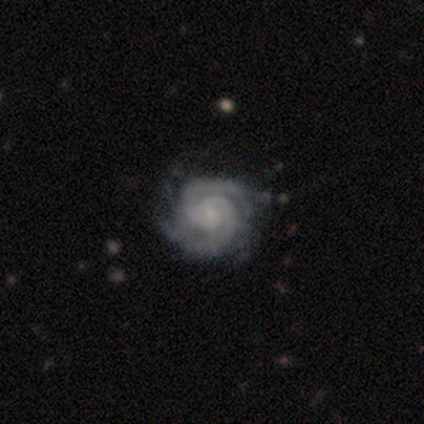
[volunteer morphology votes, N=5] featured or disk 100%, smooth 0%, star or artifact 0%. Down the decision tree: edge-on disk — no (100%); bar — no (80%); spiral arms — yes (100%); spiral arm count — 2 (60%); spiral winding — medium (60%); bulge size — small (100%); merging — none (100%).